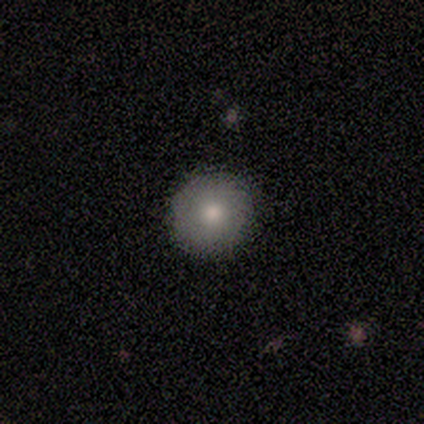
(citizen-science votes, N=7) Smooth or featured? 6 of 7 (86%) said smooth. How rounded? 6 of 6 (100%) said round. Merging? 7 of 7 (100%) said none.